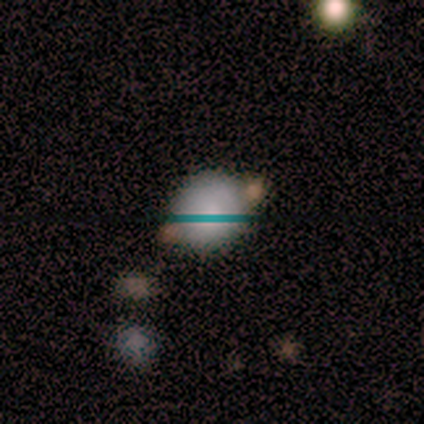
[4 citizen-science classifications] smooth 75%, featured or disk 25%, star or artifact 0%. Down the decision tree: how rounded — round (100%); merging — none (100%).